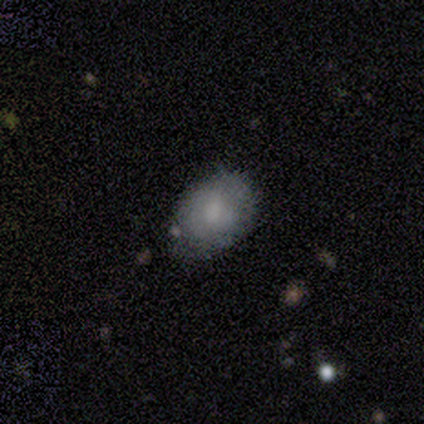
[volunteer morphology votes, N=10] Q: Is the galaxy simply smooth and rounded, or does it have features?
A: smooth — 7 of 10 (70%).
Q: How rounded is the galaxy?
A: in between — 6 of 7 (86%).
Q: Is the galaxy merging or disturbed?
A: minor disturbance — 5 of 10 (50%).